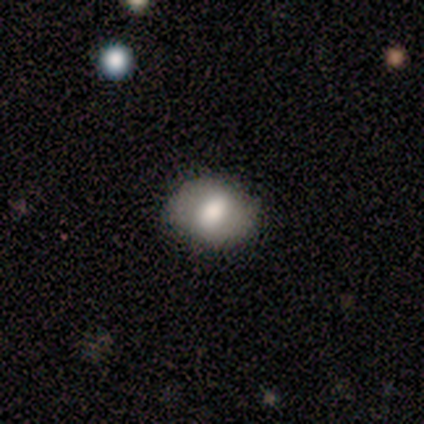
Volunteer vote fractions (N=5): Overall: smooth (60%; featured or disk 40%). How rounded: in between (100%). Merging: none (60%; minor disturbance 20%).